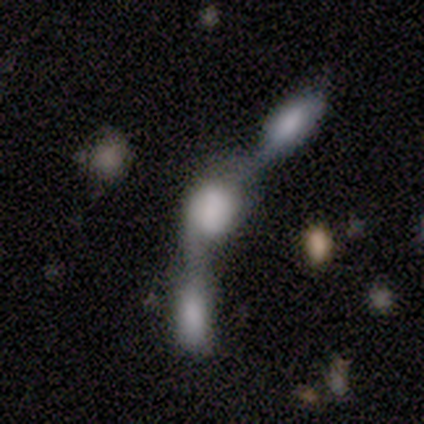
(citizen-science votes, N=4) Q: Smooth or featured?
A: featured or disk (75%); runner-up: smooth (25%)
Q: Edge-on disk?
A: no (67%); runner-up: yes (33%)
Q: Bar?
A: no (100%)
Q: Spiral arms?
A: no (100%)
Q: Bulge size?
A: none (100%)
Q: Merging?
A: merger (75%); runner-up: major disturbance (25%)